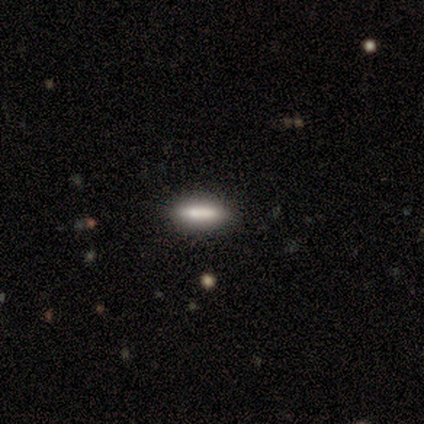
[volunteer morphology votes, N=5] Q: Smooth or featured?
A: featured or disk (40%); tied with: star or artifact (40%)
Q: Edge-on disk?
A: yes (50%); tied with: no (50%)
Q: Edge-on bulge?
A: boxy (100%)
Q: Merging?
A: none (67%); runner-up: merger (33%)